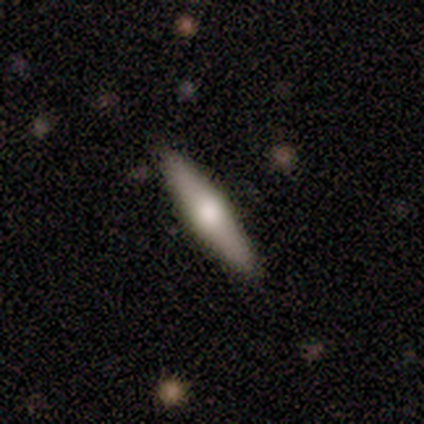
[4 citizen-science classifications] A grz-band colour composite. It shows a smooth galaxy with no disk features (50%, tied with featured or disk) that is cigar-shaped (100%). Merging: none (100%).